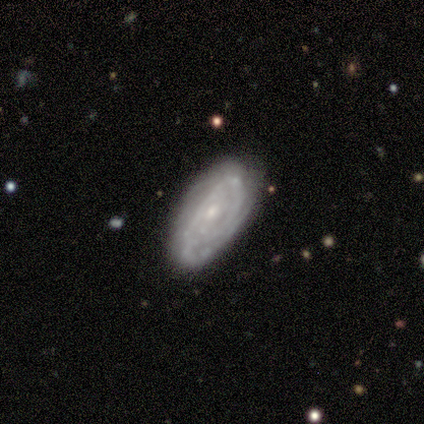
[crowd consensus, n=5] Volunteers were most divided on "spiral arm count": 2: 60%, can't tell: 40%, 1: 0%, 3: 0%, 4: 0%, more than 4: 0%. More confident: smooth or featured — featured or disk (100%); edge-on disk — no (100%); spiral arms — yes (100%); bulge size — small (100%); bar — no (80%); spiral winding — tight (80%); merging — minor disturbance (60%).